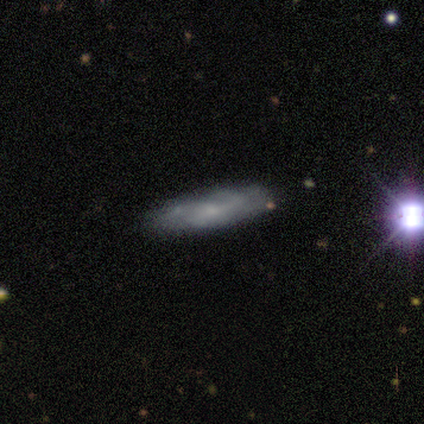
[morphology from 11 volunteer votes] Overall: smooth (55%; star or artifact 27%). How rounded: cigar-shaped (67%; in between 33%). Merging: none (62%; minor disturbance 25%).